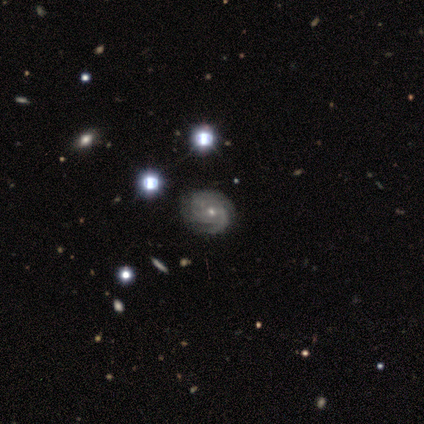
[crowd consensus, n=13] This appears to be a featured or disk galaxy (85%) with no bar (64%), 3 (36%, tied with can't tell) tight (64%) spiral arms (100%) and a small central bulge (64%). Merging: none (85%).